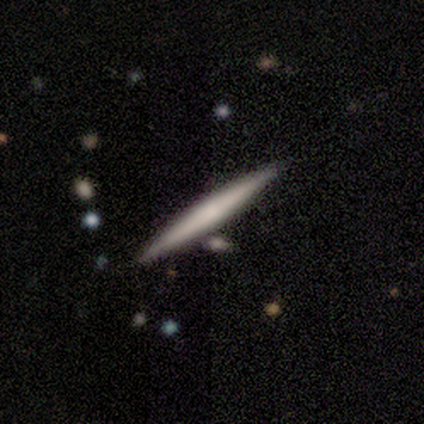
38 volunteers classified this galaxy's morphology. Smooth or featured? 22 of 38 (58%) said smooth. How rounded? 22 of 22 (100%) said cigar-shaped. Merging? 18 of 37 (49%) said none.